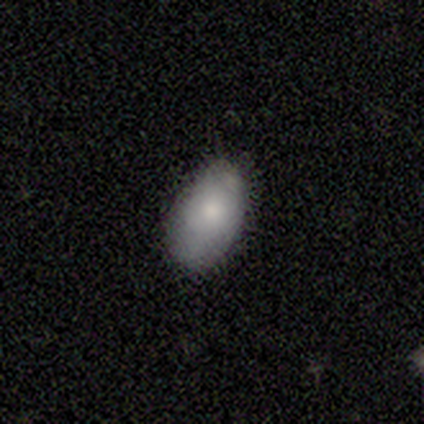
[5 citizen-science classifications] smooth-or-featured: smooth: 80% | featured or disk: 20% | star or artifact: 0%
  how-rounded: in between: 100% | round: 0% | cigar-shaped: 0%
  merging: none: 40% (tied) | minor disturbance: 40% (tied) | major disturbance: 20% | merger: 0%